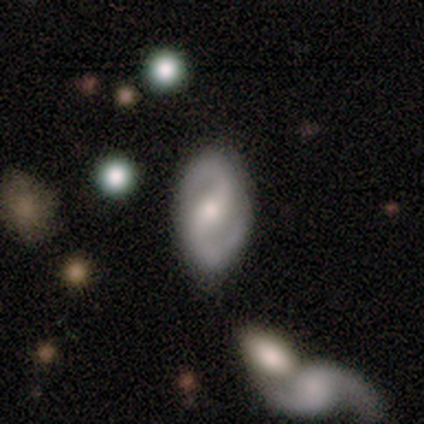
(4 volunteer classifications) Smooth or featured? 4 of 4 (100%) said featured or disk. Edge-on disk? 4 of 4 (100%) said no. Bar? 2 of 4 (50%) said strong. Spiral arms? 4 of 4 (100%) said yes. Spiral winding? 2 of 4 (50%, tied with medium) said tight. Spiral arm count? 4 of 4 (100%) said 2. Bulge size? 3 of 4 (75%) said moderate. Merging? 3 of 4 (75%) said none.